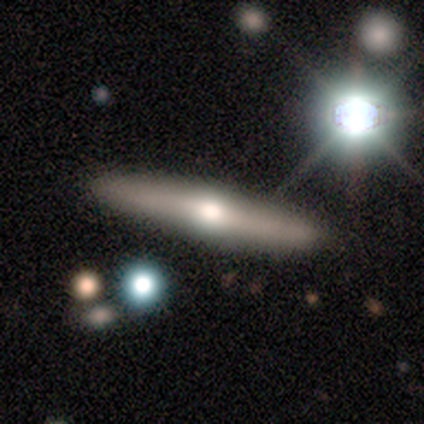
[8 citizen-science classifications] featured or disk 50%, smooth 38%, star or artifact 12%. Down the decision tree: edge-on disk — yes (75%); edge-on bulge — rounded (67%); merging — none (86%).